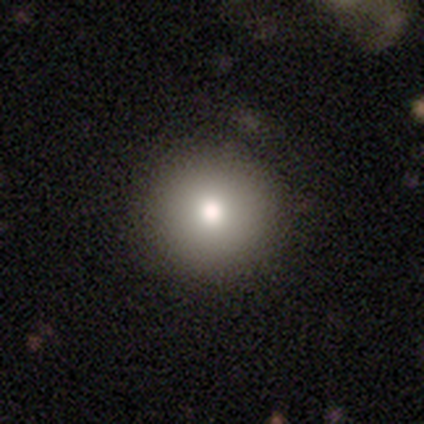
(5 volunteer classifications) Morphology: type=smooth (100%); roundness=round (100%); merging=none (100%).